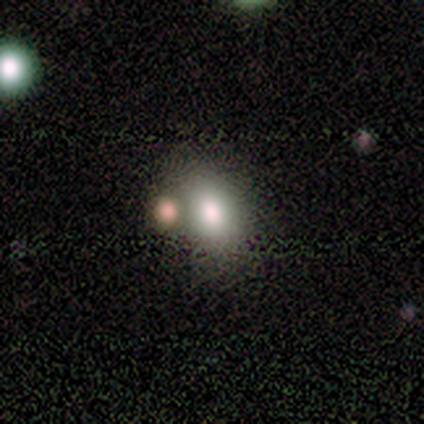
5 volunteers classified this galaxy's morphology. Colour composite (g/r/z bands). It shows a smooth galaxy with no disk features (60%) that is in between round and cigar-shaped (67%). Merging: none (60%).